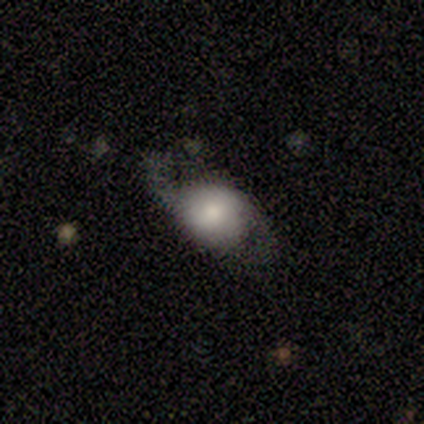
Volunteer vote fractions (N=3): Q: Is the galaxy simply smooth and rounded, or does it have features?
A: featured or disk — 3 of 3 (100%).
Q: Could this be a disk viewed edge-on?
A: no — 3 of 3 (100%).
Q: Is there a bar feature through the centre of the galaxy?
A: no — 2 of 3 (67%).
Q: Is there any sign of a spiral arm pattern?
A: no — 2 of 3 (67%).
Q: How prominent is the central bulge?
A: large — 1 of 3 (33%, tied with moderate and small).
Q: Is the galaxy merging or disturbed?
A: none — 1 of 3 (33%, tied with minor disturbance and major disturbance).